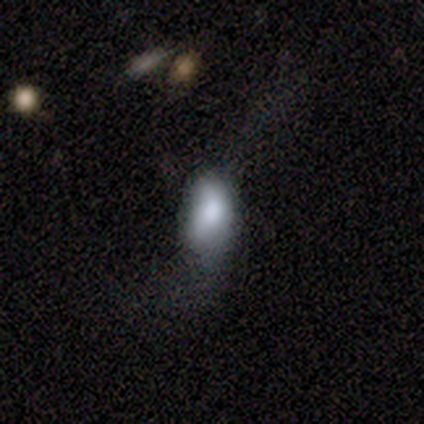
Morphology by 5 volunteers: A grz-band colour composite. It shows a smooth galaxy with no disk features (40%, tied with featured or disk) that is in between round and cigar-shaped (100%). Merging: minor disturbance (50%).